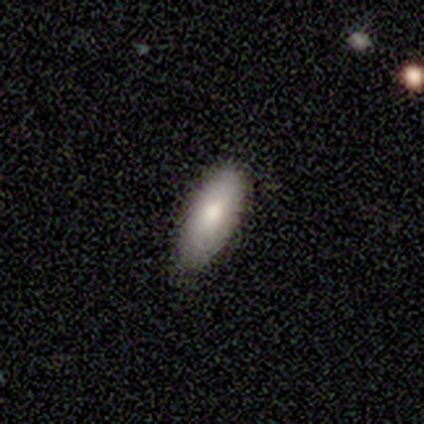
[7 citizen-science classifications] smooth 86%, star or artifact 14%, featured or disk 0%. Down the decision tree: how rounded — in between (83%); merging — none (83%).